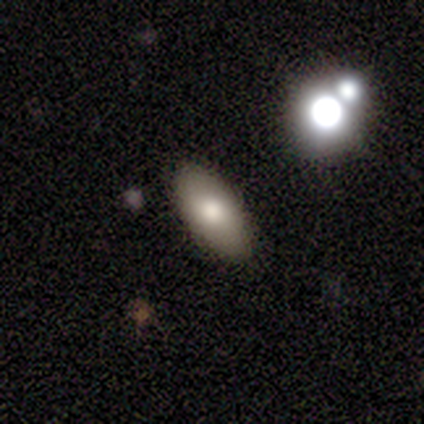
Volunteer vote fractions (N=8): smooth 100%, featured or disk 0%, star or artifact 0%. Down the decision tree: how rounded — in between (100%); merging — none (88%).